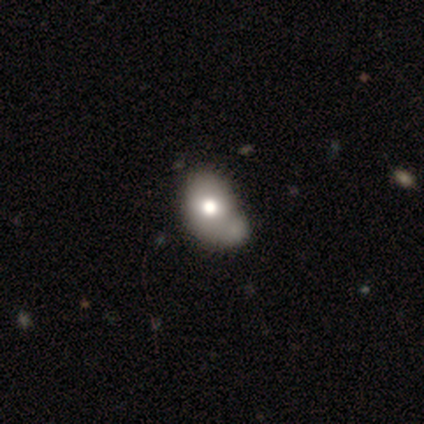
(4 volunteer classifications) smooth 75%, star or artifact 25%, featured or disk 0%. Down the decision tree: how rounded — in between (100%); merging — minor disturbance (67%).